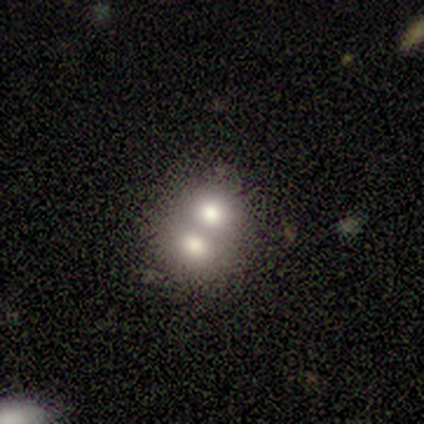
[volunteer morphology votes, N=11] Smooth or featured: smooth — 45% (featured or disk — 27%)
How rounded: round — 80% (in between — 20%)
Merging: merger — 88% (none — 12%)